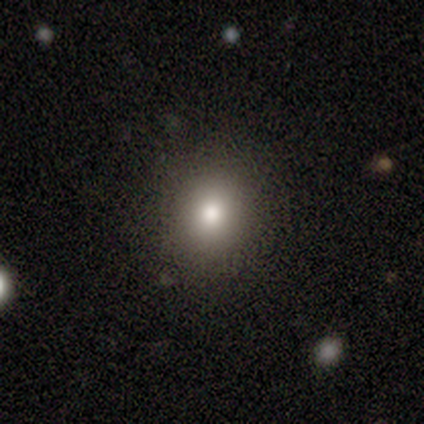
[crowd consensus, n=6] This appears to be a smooth galaxy with no disk features (50%, tied with star or artifact) that is in between round and cigar-shaped (67%). Merging: none (67%).